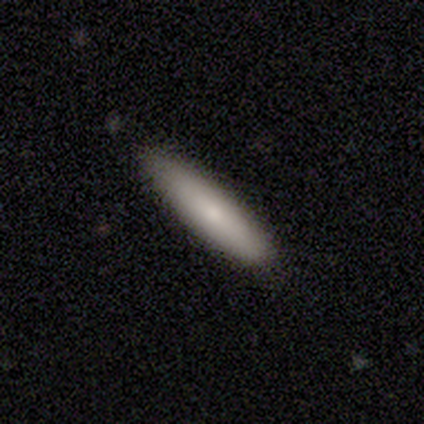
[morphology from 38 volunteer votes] smooth 79%, featured or disk 11%, star or artifact 11%. Down the decision tree: how rounded — cigar-shaped (90%); merging — none (91%).